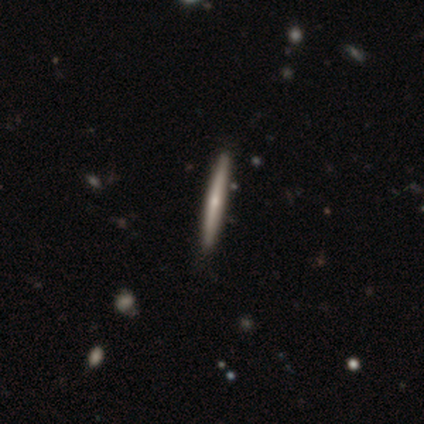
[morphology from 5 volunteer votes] Smooth or featured? featured or disk (60%)
Edge-on disk? yes (100%)
Edge-on bulge? none (67%)
Merging? none (100%)